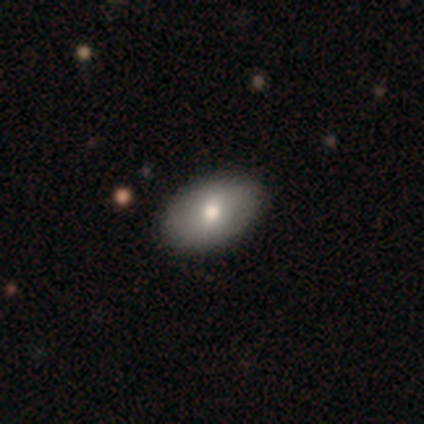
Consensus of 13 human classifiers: smooth-or-featured: smooth: 46% (tied) | featured or disk: 46% (tied) | star or artifact: 8%
  how-rounded: in between: 100% | round: 0% | cigar-shaped: 0%
  merging: none: 92% | minor disturbance: 8% | major disturbance: 0% | merger: 0%